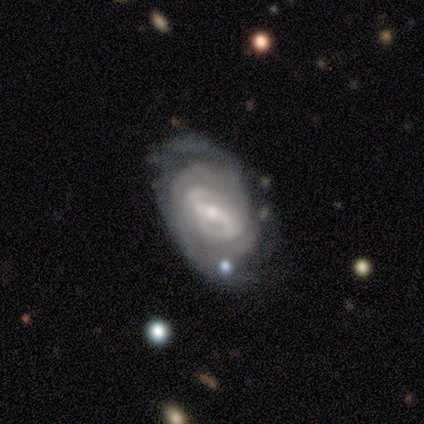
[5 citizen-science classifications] Volunteers were most divided on "spiral arm count" (2-way tie): 2: 40%, can't tell: 40%, 1: 20%, 3: 0%, 4: 0%, more than 4: 0%. More confident: smooth or featured — featured or disk (100%); edge-on disk — no (100%); spiral arms — yes (100%); bar — strong (80%); spiral winding — tight (60%); bulge size — moderate (60%); merging — none (60%).